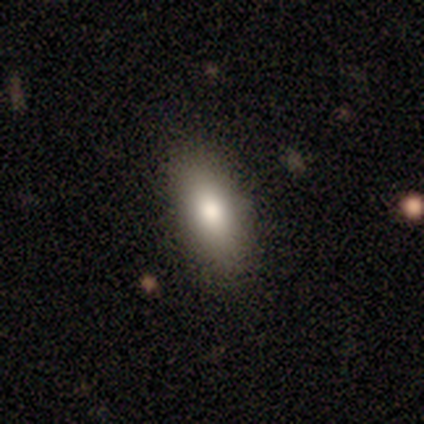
Morphology: type=smooth (50%, tied with featured or disk); roundness=in between (100%); merging=none (50%).